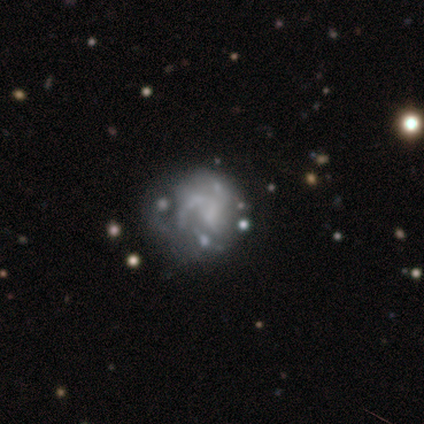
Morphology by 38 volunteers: Volunteers were most divided on "merging" (3-way tie): none: 31%, minor disturbance: 31%, major disturbance: 31%, merger: 6%. Remaining: edge-on disk — no (100%); bar — no (70%); smooth or featured — featured or disk (61%); spiral arms — yes (57%); bulge size — none (57%); spiral winding — medium (54%); spiral arm count — 3 (38%).